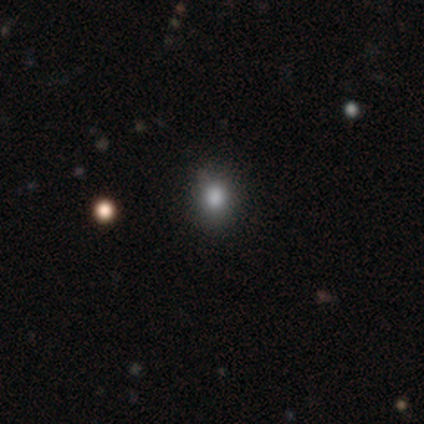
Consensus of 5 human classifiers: Smooth or featured? smooth (80%)
How rounded? round (75%)
Merging? none (50%, tied with minor disturbance)